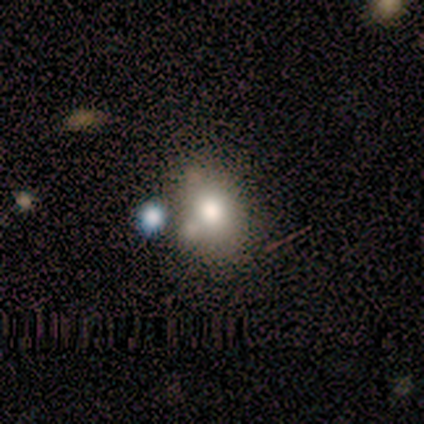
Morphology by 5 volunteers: This appears to be a smooth galaxy with no disk features (60%) that is round (67%). Merging: merger (75%).